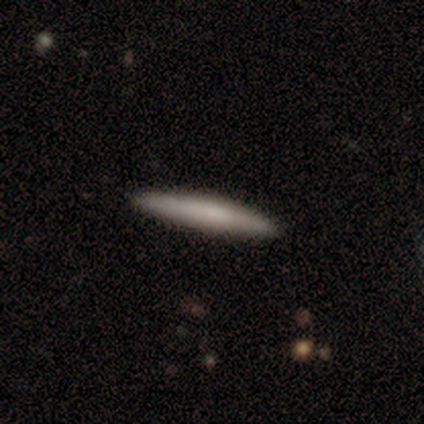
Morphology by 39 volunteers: type=smooth (77%); roundness=cigar-shaped (97%); merging=none (97%).